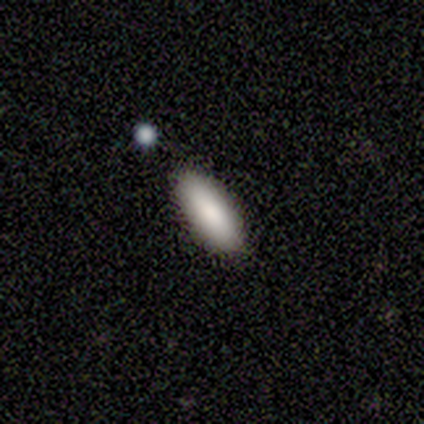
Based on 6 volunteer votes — Q: Smooth or featured?
A: smooth (100%)
Q: How rounded?
A: in between (100%)
Q: Merging?
A: none (67%); runner-up: minor disturbance (33%)